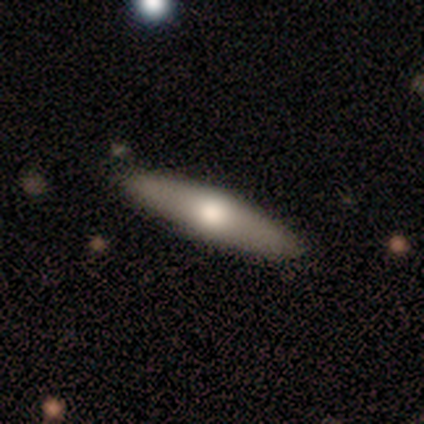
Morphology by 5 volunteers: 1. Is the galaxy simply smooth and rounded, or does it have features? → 60% smooth, 40% featured or disk, 0% star or artifact.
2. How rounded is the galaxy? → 100% cigar-shaped, 0% round, 0% in between.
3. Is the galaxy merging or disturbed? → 100% none, 0% minor disturbance, 0% major disturbance, 0% merger.